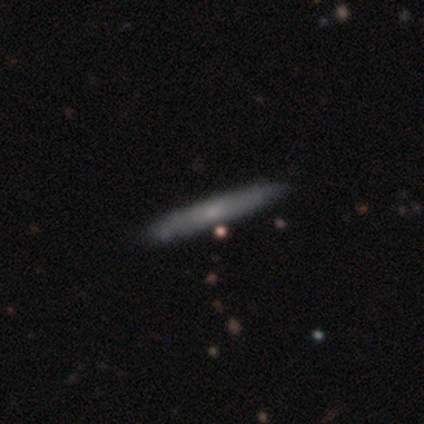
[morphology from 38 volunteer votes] Smooth or featured? smooth (50%)
How rounded? cigar-shaped (100%)
Merging? none (76%)